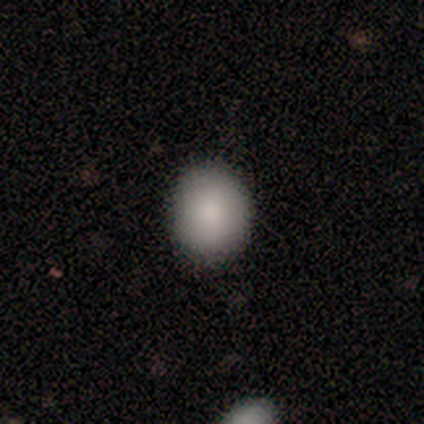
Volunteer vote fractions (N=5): This is likely a smooth galaxy (60%). How rounded: likely in between (67%). Merging: likely none (67%).